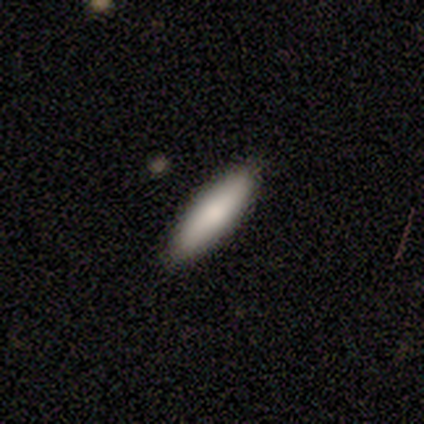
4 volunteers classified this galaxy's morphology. Volunteers were most divided on "how rounded" (2-way tie): in between: 50%, cigar-shaped: 50%, round: 0%. More confident: smooth or featured — smooth (100%); merging — none (100%).